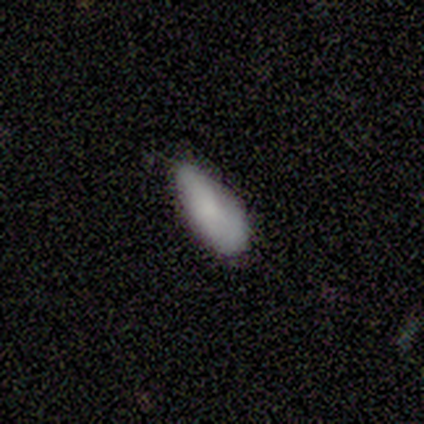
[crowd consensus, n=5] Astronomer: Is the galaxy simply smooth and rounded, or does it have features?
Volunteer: smooth — 100%.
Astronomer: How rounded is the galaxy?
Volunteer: in between — 100%.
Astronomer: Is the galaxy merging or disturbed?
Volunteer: minor disturbance — 60% (runner-up: none, 40%).